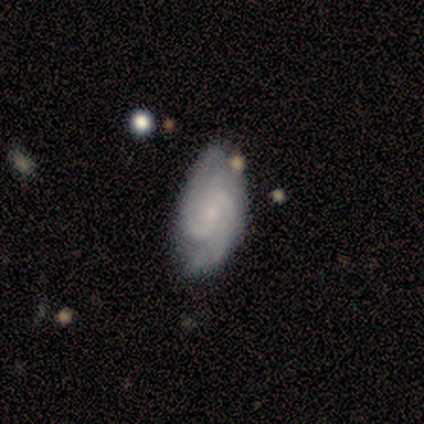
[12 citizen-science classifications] Volunteers were most divided on "bar": no: 50%, weak: 40%, strong: 10%. More confident: spiral arms — yes (100%); smooth or featured — featured or disk (92%); edge-on disk — no (91%); spiral winding — tight (80%); bulge size — small (70%); merging — none (67%); spiral arm count — 2 (60%).